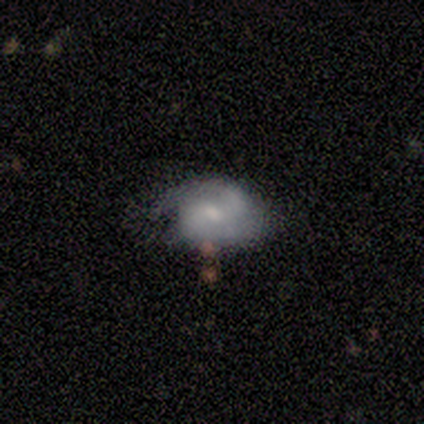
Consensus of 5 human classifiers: A featured or disk galaxy (60%) with a weak bar (67%), 2 (67%) medium (67%) spiral arms (100%) and a moderate central bulge (67%). Merging: none (80%).